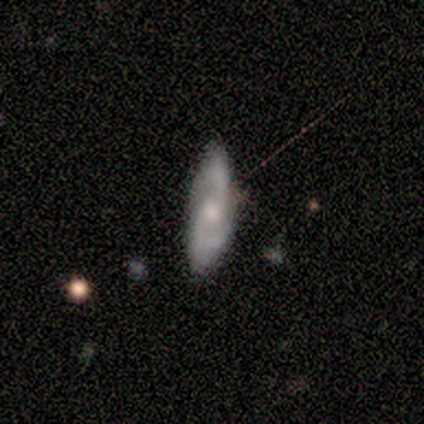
Smooth or featured?
  - featured or disk: 100% *
  - smooth: 0%
  - star or artifact: 0%
Edge-on disk?
  - no: 100% *
  - yes: 0%
Bar?
  - no: 100% *
  - strong: 0%
  - weak: 0%
Spiral arms?
  - yes: 100% *
  - no: 0%
Spiral winding?
  - medium: 40% * (tied)
  - loose: 40% * (tied)
  - tight: 20%
Spiral arm count?
  - 2: 100% *
  - 1: 0%
  - 3: 0%
  - 4: 0%
  - more than 4: 0%
  - can't tell: 0%
Bulge size?
  - moderate: 80% *
  - small: 20%
  - dominant: 0%
  - large: 0%
  - none: 0%
Merging?
  - none: 100% *
  - minor disturbance: 0%
  - major disturbance: 0%
  - merger: 0%